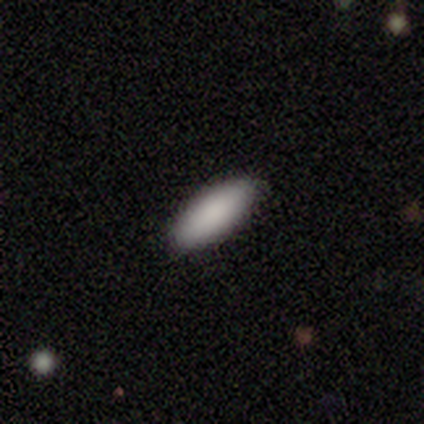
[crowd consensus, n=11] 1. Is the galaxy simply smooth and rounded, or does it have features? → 100% smooth, 0% featured or disk, 0% star or artifact.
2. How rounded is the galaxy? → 55% cigar-shaped, 45% in between, 0% round.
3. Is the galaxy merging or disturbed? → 91% none, 9% minor disturbance, 0% major disturbance, 0% merger.